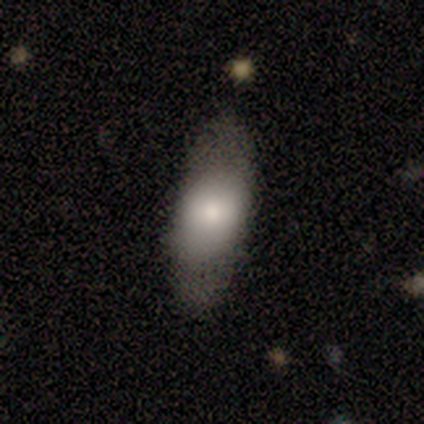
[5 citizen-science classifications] A smooth galaxy with no disk features (100%) that is in between round and cigar-shaped (80%).

Vote fractions:
- Smooth or featured? smooth: 100% / featured or disk: 0% / star or artifact: 0%
- How rounded? in between: 80% / cigar-shaped: 20% / round: 0%
- Merging? none: 80% / major disturbance: 20% / minor disturbance: 0% / merger: 0%